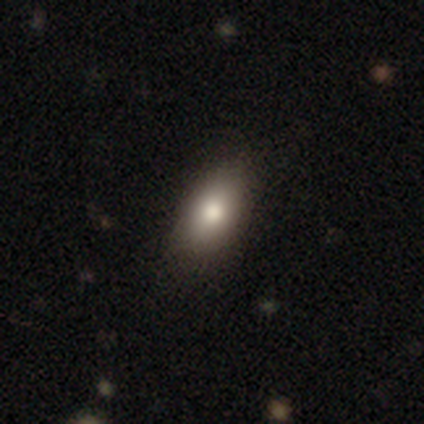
Volunteers were most divided on "smooth or featured": smooth: 81%, featured or disk: 14%, star or artifact: 5%. More confident: how rounded — in between (97%); merging — none (89%).